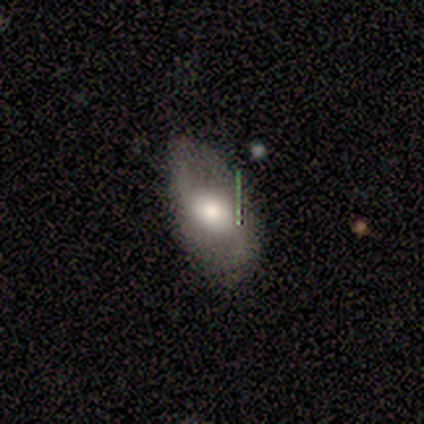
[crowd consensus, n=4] Smooth or featured? 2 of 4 (50%, tied with featured or disk) said smooth. How rounded? 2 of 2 (100%) said in between. Merging? 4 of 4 (100%) said none.